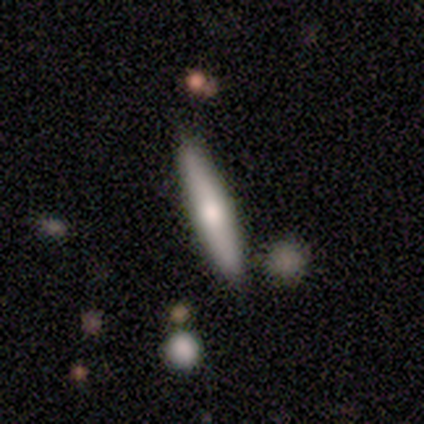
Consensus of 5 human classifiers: smooth 40% (tied), featured or disk 40% (tied), star or artifact 20%. Down the decision tree: how rounded — cigar-shaped (100%); merging — none (100%).